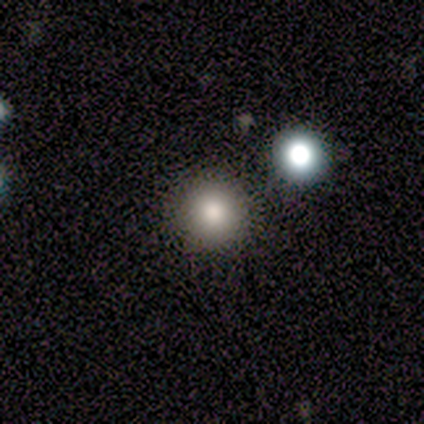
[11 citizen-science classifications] Q: Smooth or featured?
A: smooth (73%); runner-up: featured or disk (18%)
Q: How rounded?
A: round (100%)
Q: Merging?
A: none (90%); runner-up: merger (10%)